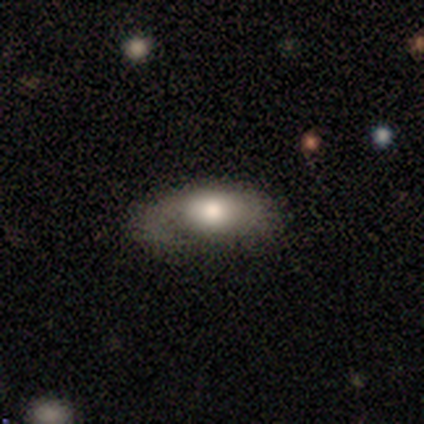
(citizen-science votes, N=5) Smooth or featured? 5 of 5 (100%) said smooth. How rounded? 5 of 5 (100%) said in between. Merging? 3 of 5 (60%) said minor disturbance.